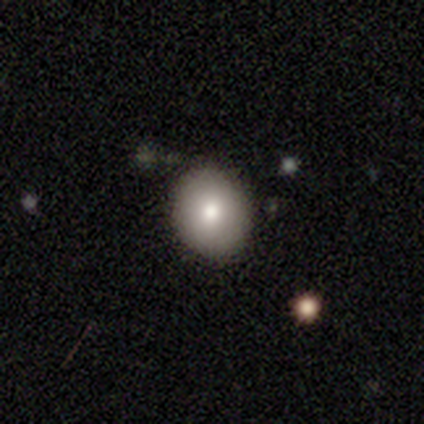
Overall: smooth (74%). How rounded: round (81%). Merging: none (90%).